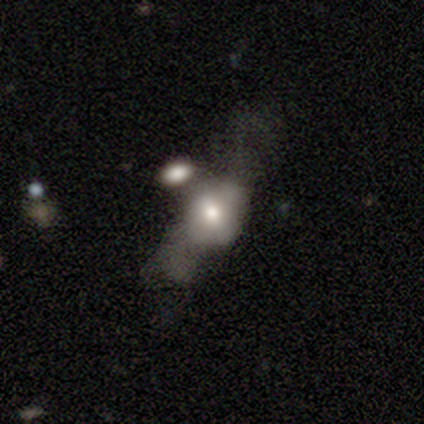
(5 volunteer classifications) A smooth galaxy with no disk features (60%) that is in between round and cigar-shaped (67%). Merging: major disturbance (40%, tied with merger).